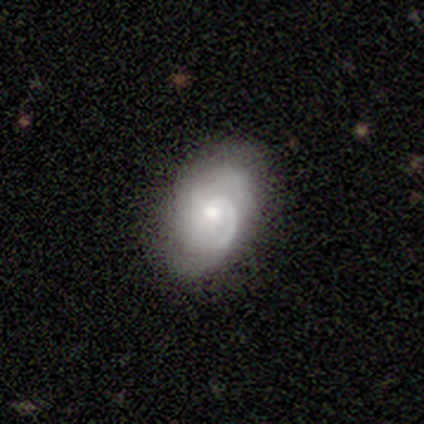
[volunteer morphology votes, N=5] Q: Smooth or featured?
A: featured or disk (100%)
Q: Edge-on disk?
A: no (100%)
Q: Bar?
A: no (80%); runner-up: weak (20%)
Q: Spiral arms?
A: yes (100%)
Q: Spiral winding?
A: medium (80%); runner-up: tight (20%)
Q: Spiral arm count?
A: 2 (80%); runner-up: 1 (20%)
Q: Bulge size?
A: moderate (60%); runner-up: large (20%)
Q: Merging?
A: none (100%)